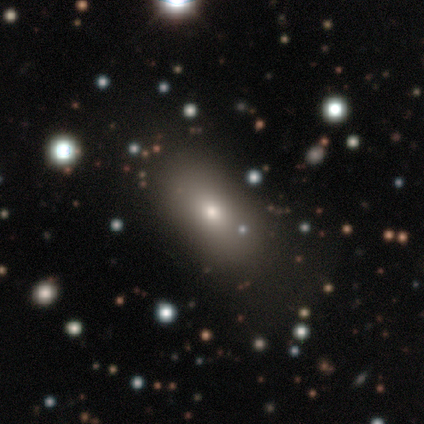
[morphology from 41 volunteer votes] Smooth or featured?
  - smooth: 68% *
  - star or artifact: 20%
  - featured or disk: 12%
How rounded?
  - in between: 75% *
  - round: 18%
  - cigar-shaped: 7%
Merging?
  - none: 82% *
  - minor disturbance: 12%
  - major disturbance: 3%
  - merger: 3%